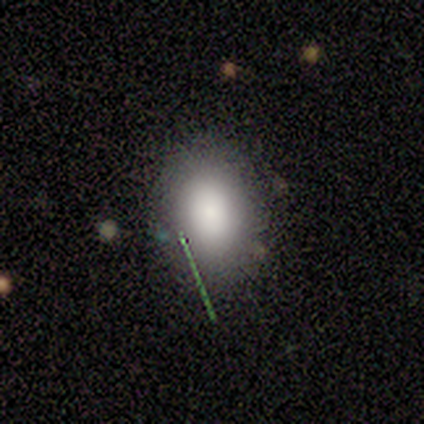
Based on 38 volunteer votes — A smooth galaxy with no disk features (79%) that is in between round and cigar-shaped (93%).

Vote fractions:
- Smooth or featured? smooth: 79% / featured or disk: 18% / star or artifact: 3%
- How rounded? in between: 93% / round: 7% / cigar-shaped: 0%
- Merging? none: 81% / minor disturbance: 16% / major disturbance: 3% / merger: 0%